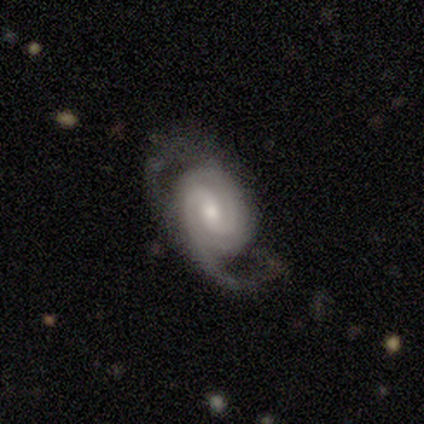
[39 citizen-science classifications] Smooth or featured? 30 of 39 (77%) said featured or disk. Edge-on disk? 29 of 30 (97%) said no. Bar? 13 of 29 (45%) said no. Spiral arms? 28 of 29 (97%) said yes. Spiral winding? 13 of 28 (46%) said medium. Spiral arm count? 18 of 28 (64%) said 2. Bulge size? 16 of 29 (55%) said moderate. Merging? 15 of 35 (43%) said none.